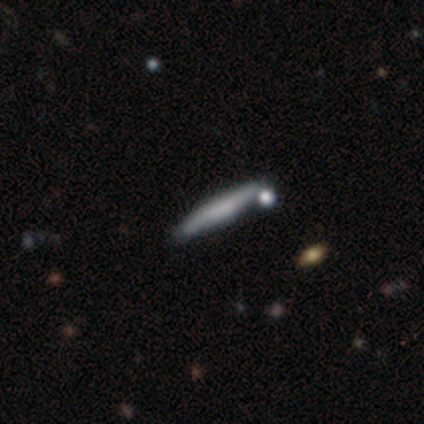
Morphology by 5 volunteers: This appears to be a smooth galaxy with no disk features (80%) that is cigar-shaped (100%). Merging: none (60%).